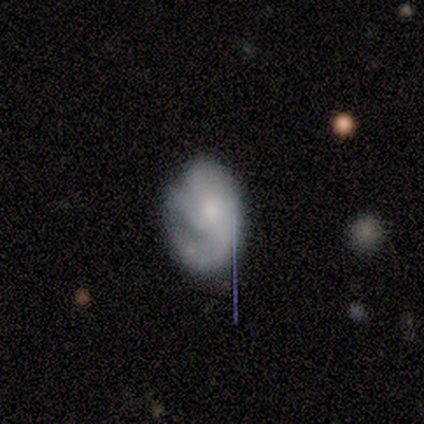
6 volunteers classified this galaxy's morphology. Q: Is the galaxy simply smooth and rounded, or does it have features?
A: featured or disk — 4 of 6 (67%).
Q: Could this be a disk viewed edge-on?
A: no — 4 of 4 (100%).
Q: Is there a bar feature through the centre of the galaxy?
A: no — 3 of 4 (75%).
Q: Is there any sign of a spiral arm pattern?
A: yes — 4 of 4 (100%).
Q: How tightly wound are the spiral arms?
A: tight — 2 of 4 (50%, tied with medium).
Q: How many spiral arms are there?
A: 3 — 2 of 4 (50%, tied with can't tell).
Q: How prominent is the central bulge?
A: moderate — 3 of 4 (75%).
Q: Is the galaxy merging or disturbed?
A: none — 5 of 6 (83%).